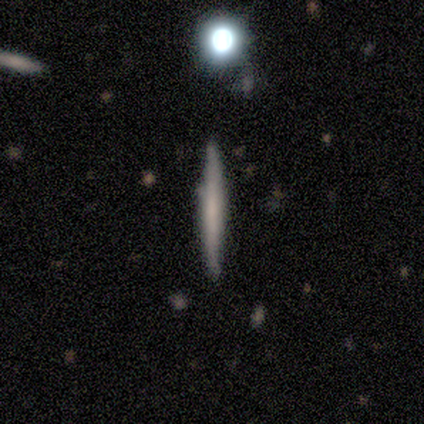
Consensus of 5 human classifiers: Smooth or featured? smooth (80%)
How rounded? cigar-shaped (75%)
Merging? none (80%)